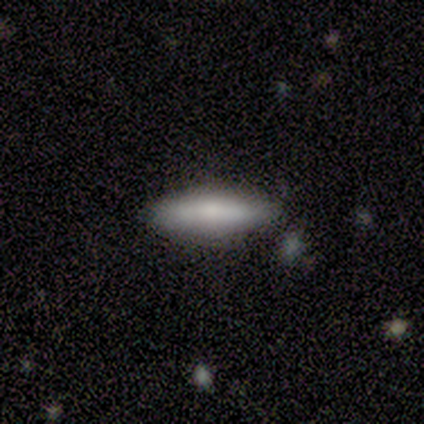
Overall: smooth (60%; featured or disk 40%). How rounded: cigar-shaped (100%). Merging: none (80%).